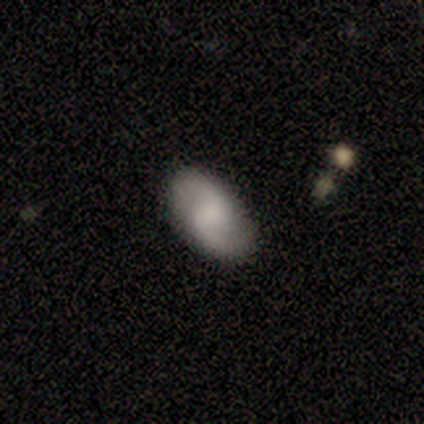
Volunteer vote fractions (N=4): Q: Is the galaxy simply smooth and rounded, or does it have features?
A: featured or disk — 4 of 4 (100%).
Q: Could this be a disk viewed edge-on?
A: no — 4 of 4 (100%).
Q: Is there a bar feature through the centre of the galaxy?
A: no — 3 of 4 (75%).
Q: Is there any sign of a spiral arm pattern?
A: yes — 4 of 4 (100%).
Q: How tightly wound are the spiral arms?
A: medium — 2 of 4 (50%, tied with loose).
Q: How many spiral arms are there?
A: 2 — 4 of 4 (100%).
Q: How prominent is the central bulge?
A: none — 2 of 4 (50%).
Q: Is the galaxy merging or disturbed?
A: none — 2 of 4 (50%, tied with minor disturbance).